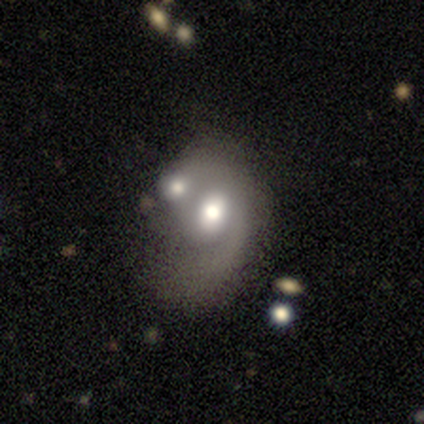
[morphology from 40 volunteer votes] A featured or disk galaxy (60%) with no bar (83%), 1 (73%) medium (47%, tied with loose) spiral arms (62%) and a large central bulge (54%).

Vote fractions:
- Smooth or featured? featured or disk: 60% / smooth: 32% / star or artifact: 8%
- Edge-on disk? no: 100% / yes: 0%
- Bar? no: 83% / weak: 12% / strong: 4%
- Spiral arms? yes: 62% / no: 38%
- Spiral winding? medium: 47% (tied) / loose: 47% (tied) / tight: 7%
- Spiral arm count? 1: 73% / 2: 20% / can't tell: 7% / 3: 0% / 4: 0% / more than 4: 0%
- Bulge size? large: 54% / moderate: 46% / dominant: 0% / small: 0% / none: 0%
- Merging? merger: 43% / major disturbance: 22% / minor disturbance: 19% / none: 16%